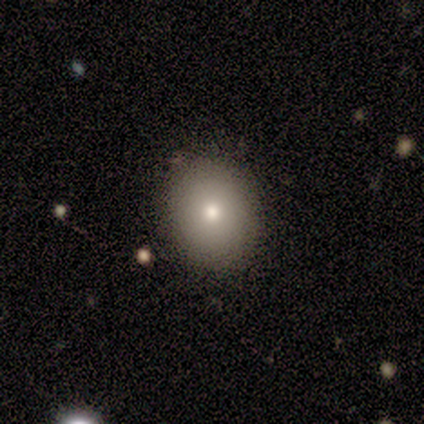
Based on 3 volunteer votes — smooth 100%, featured or disk 0%, star or artifact 0%. Down the decision tree: how rounded — round (67%); merging — none (100%).